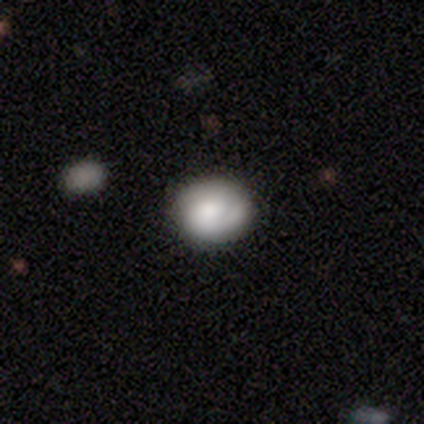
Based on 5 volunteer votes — Volunteers were most divided on "spiral arm count" (3-way tie): 1: 33%, 2: 33%, can't tell: 33%, 3: 0%, 4: 0%, more than 4: 0%; "bulge size" (3-way tie): moderate: 33%, small: 33%, none: 33%, dominant: 0%, large: 0%. More confident: edge-on disk — no (100%); bar — no (100%); spiral arms — yes (100%); merging — none (100%); spiral winding — tight (67%); smooth or featured — featured or disk (60%).